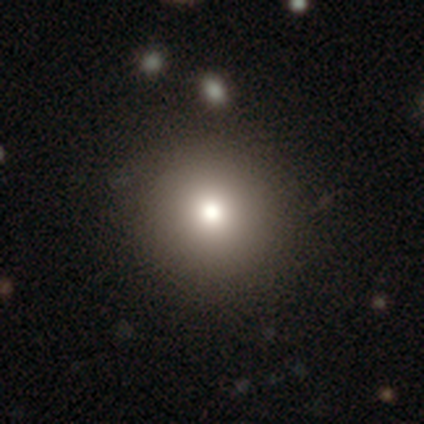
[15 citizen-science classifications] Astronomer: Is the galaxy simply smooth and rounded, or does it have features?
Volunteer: smooth — 80%.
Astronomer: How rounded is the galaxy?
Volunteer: round — 92%.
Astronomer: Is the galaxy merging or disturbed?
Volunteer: none — 100%.